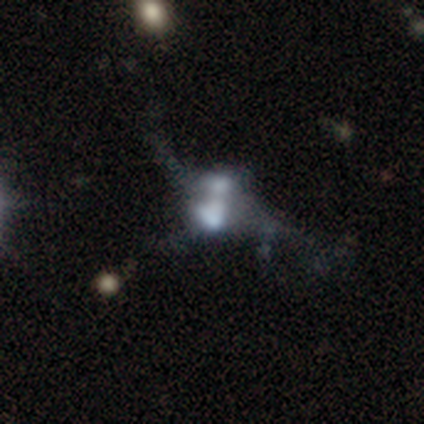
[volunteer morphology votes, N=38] Q: Smooth or featured?
A: featured or disk (55%); runner-up: smooth (24%)
Q: Edge-on disk?
A: no (86%); runner-up: yes (14%)
Q: Bar?
A: no (94%); runner-up: weak (6%)
Q: Spiral arms?
A: no (83%); runner-up: yes (17%)
Q: Bulge size?
A: none (39%); runner-up: moderate (28%)
Q: Merging?
A: merger (67%); runner-up: major disturbance (23%)